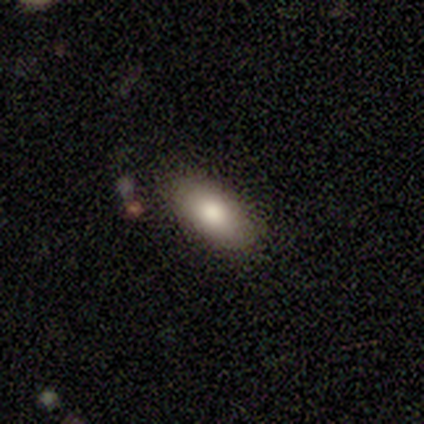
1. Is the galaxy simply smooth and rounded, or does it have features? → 100% smooth, 0% featured or disk, 0% star or artifact.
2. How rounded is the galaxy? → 100% in between, 0% round, 0% cigar-shaped.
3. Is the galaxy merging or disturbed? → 100% none, 0% minor disturbance, 0% major disturbance, 0% merger.